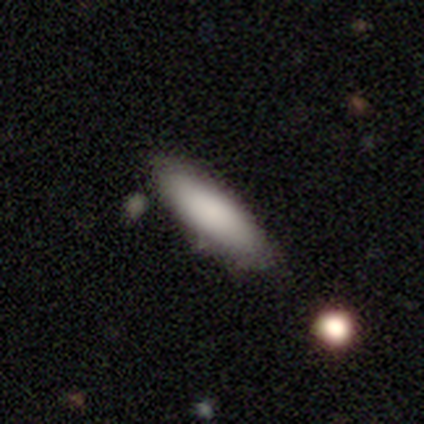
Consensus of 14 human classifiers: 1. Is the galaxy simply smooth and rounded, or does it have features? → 79% smooth, 14% star or artifact, 7% featured or disk.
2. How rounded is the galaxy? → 55% in between, 45% cigar-shaped, 0% round.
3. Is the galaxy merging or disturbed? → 75% none, 25% minor disturbance, 0% major disturbance, 0% merger.